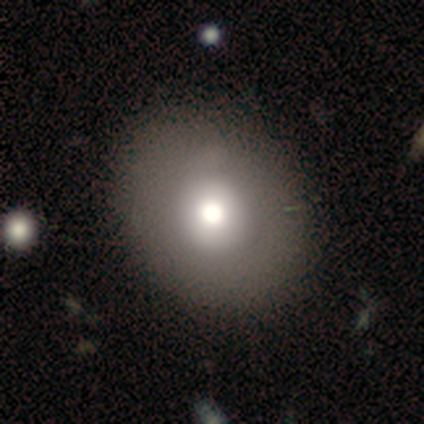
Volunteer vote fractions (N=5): This appears to be a smooth galaxy with no disk features (60%) that is round (67%). Merging: none (50%).